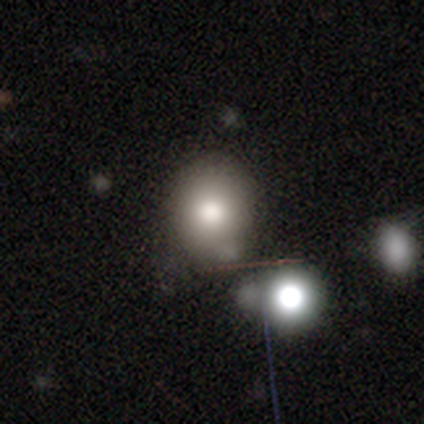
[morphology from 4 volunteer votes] type=smooth (75%); roundness=round (100%); merging=none (67%).